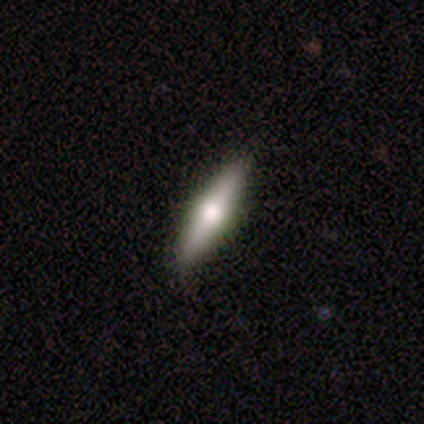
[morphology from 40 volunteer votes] smooth 57%, featured or disk 35%, star or artifact 8%. Down the decision tree: how rounded — cigar-shaped (78%); merging — none (92%).